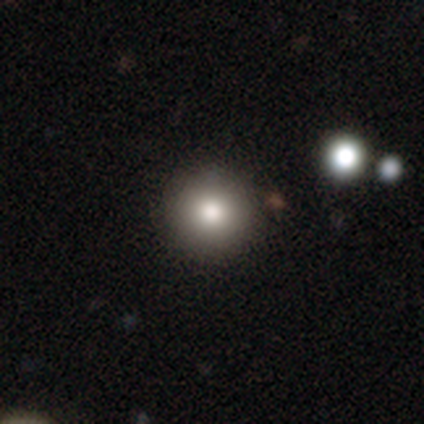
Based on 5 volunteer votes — smooth-or-featured: smooth: 80% | featured or disk: 20% | star or artifact: 0%
  how-rounded: round: 100% | in between: 0% | cigar-shaped: 0%
  merging: none: 100% | minor disturbance: 0% | major disturbance: 0% | merger: 0%